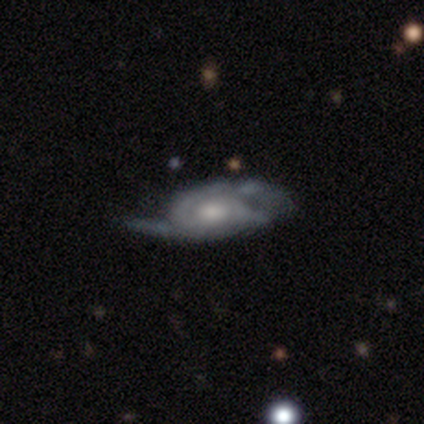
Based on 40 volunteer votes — smooth_or_featured: featured or disk (p=0.85) [alt: star or artifact p=0.10]
disk_edge_on: no (p=0.94) [alt: yes p=0.06]
bar: no (p=0.78) [alt: weak p=0.16]
has_spiral_arms: yes (p=0.91) [alt: no p=0.09]
spiral_winding: tight (p=0.69) [alt: medium p=0.24]
spiral_arm_count: 2 (p=0.48) [alt: can't tell p=0.34]
bulge_size: moderate (p=0.56) [alt: small p=0.22]
merging: minor disturbance (p=0.39) [alt: none p=0.31]